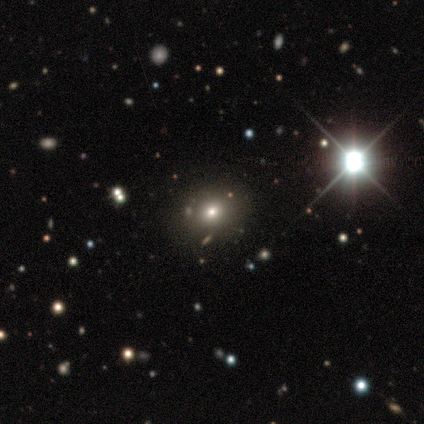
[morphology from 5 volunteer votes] Smooth or featured: smooth — 40% (tied with star or artifact — 40%)
How rounded: round — 50% (tied with in between — 50%)
Merging: none — 100%